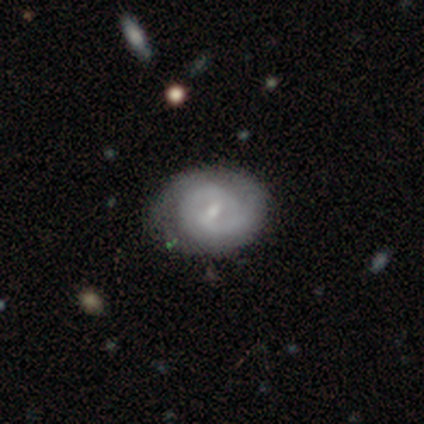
This is clearly a featured or disk galaxy (82%). It is clearly not viewed edge-on (100%). Bar: likely weak (75%). Spiral arm pattern: clearly yes (94%). Spiral arm count: possibly 2 (57%). Spiral winding: likely tight (63%). Central bulge: likely small (69%). Merging: possibly none (47%).